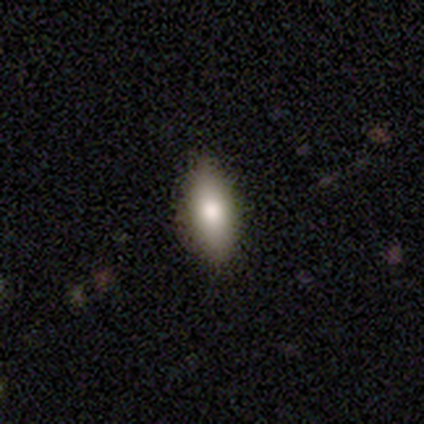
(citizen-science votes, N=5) Q: Smooth or featured?
A: smooth (100%)
Q: How rounded?
A: in between (40%); tied with: cigar-shaped (40%)
Q: Merging?
A: none (80%); runner-up: minor disturbance (20%)